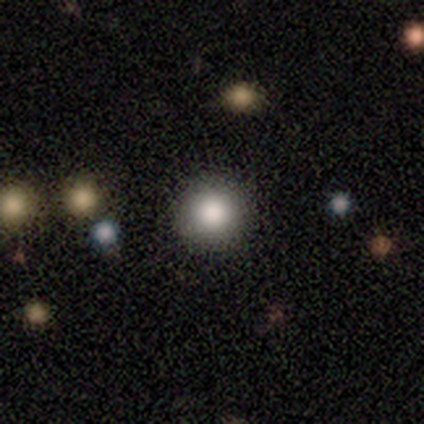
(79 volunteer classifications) Overall: smooth (86%). How rounded: round (100%). Merging: none (50%).